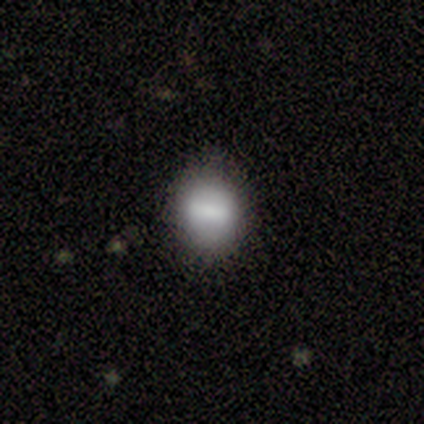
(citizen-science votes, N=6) smooth 100%, featured or disk 0%, star or artifact 0%. Down the decision tree: how rounded — round (50%, tied with in between); merging — none (100%).